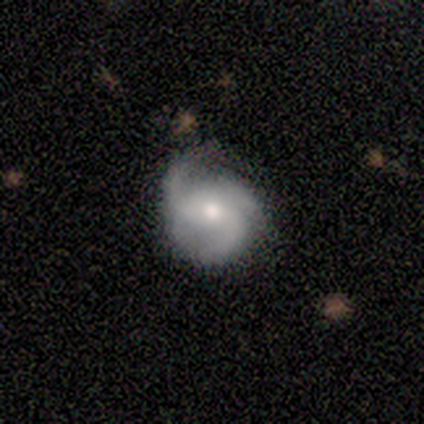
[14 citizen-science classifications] Smooth or featured? featured or disk (79%)
Edge-on disk? no (100%)
Bar? no (64%)
Spiral arms? yes (91%)
Spiral winding? medium (40%, tied with loose)
Spiral arm count? 3 (80%)
Bulge size? moderate (55%)
Merging? none (71%)